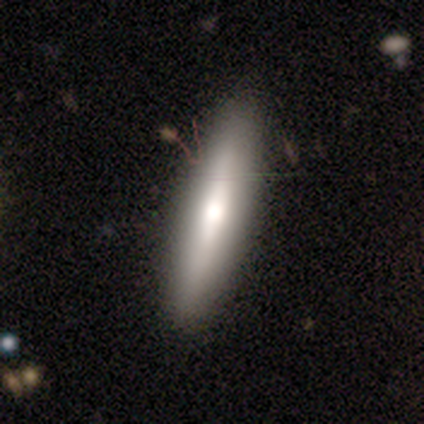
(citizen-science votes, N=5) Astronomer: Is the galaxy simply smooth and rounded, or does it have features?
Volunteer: featured or disk — 60% (runner-up: smooth, 40%).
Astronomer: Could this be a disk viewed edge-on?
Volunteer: no — 67%.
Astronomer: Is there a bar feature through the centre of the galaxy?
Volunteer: no — 100%.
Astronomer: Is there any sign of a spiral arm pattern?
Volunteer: no — 100%.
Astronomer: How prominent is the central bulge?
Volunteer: moderate — 100%.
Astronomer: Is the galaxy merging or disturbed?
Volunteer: none — 100%.